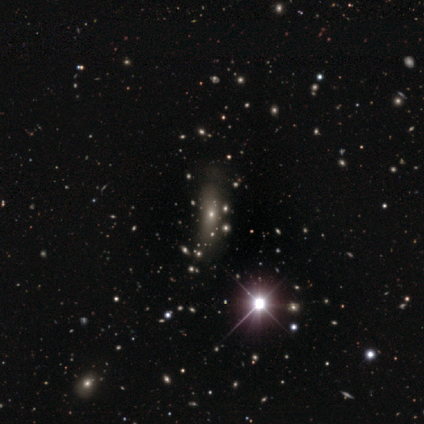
This is likely a star or artifact rather than a galaxy (60%).